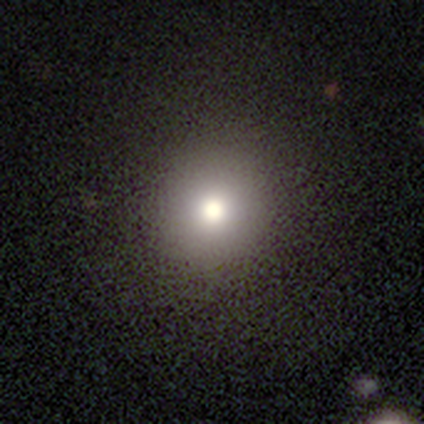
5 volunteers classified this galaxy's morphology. Smooth or featured? star or artifact (60%)